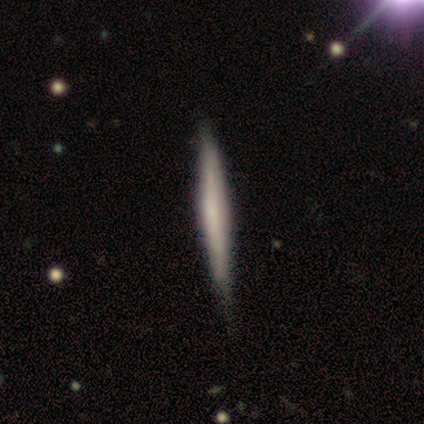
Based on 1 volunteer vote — Smooth or featured?
  - featured or disk: 100% *
  - smooth: 0%
  - star or artifact: 0%
Edge-on disk?
  - yes: 100% *
  - no: 0%
Edge-on bulge?
  - none: 100% *
  - boxy: 0%
  - rounded: 0%
Merging?
  - none: 100% *
  - minor disturbance: 0%
  - major disturbance: 0%
  - merger: 0%